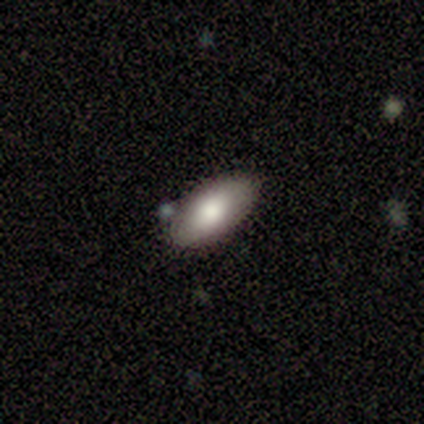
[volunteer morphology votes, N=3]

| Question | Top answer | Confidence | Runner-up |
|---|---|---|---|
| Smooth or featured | smooth | 33% | tied: featured or disk (33%), star or artifact (33%) |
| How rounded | in between | 100% | — |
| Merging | none | 100% | — |